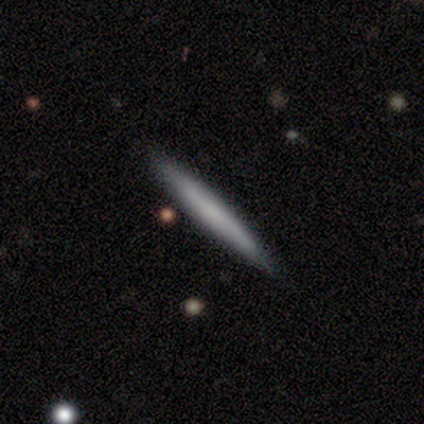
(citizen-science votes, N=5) Overall: featured or disk (60%; smooth 40%). Edge-on disk: yes (67%; no 33%). Edge-on bulge: none (100%). Merging: none (80%).